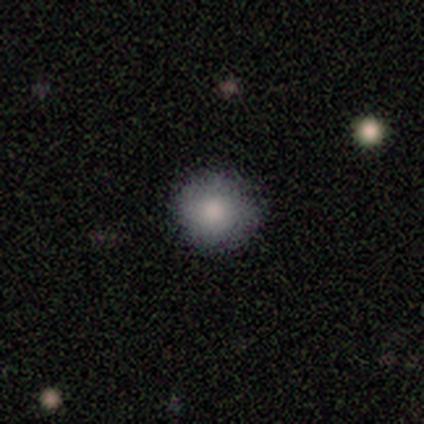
This appears to be a smooth galaxy with no disk features (100%) that is round (100%). Merging: none (60%).